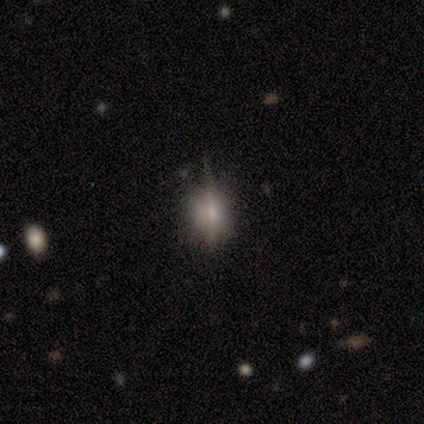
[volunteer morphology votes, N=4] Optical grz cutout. It shows a smooth galaxy with no disk features (75%) that is round (67%). Merging: none (75%).